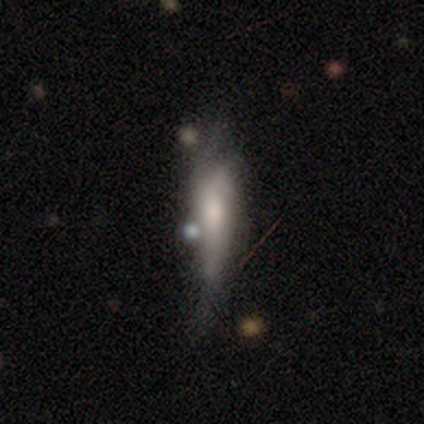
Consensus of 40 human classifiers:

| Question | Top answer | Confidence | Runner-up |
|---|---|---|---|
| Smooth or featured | smooth | 50% | featured or disk (45%) |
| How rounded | cigar-shaped | 75% | in between (25%) |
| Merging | minor disturbance | 24% | tied: major disturbance (24%) |